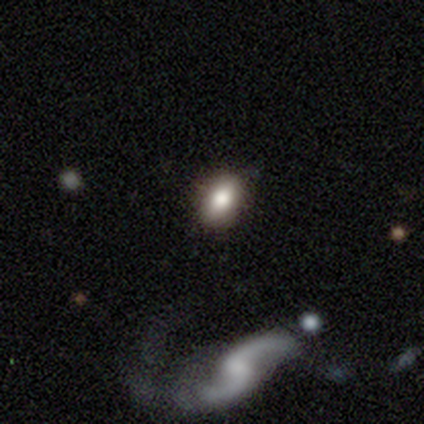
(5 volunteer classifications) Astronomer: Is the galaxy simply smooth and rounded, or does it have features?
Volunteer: smooth — 80%.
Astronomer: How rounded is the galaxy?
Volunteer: in between — 100%.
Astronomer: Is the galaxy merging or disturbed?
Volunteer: none — 100%.